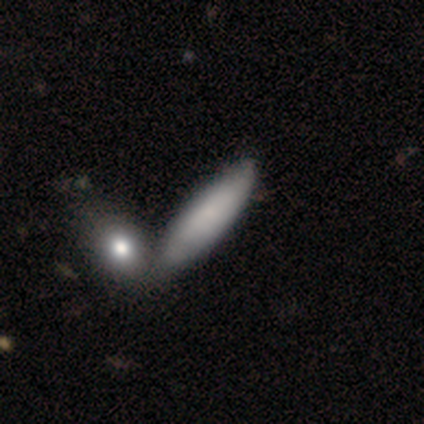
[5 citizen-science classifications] A featured or disk galaxy (60%) with no bar (100%), tight (50%, tied with medium) spiral arms (67%) and a small central bulge (100%).

Vote fractions:
- Smooth or featured? featured or disk: 60% / smooth: 40% / star or artifact: 0%
- Edge-on disk? no: 100% / yes: 0%
- Bar? no: 100% / strong: 0% / weak: 0%
- Spiral arms? yes: 67% / no: 33%
- Spiral winding? tight: 50% (tied) / medium: 50% (tied) / loose: 0%
- Spiral arm count? can't tell: 100% / 1: 0% / 2: 0% / 3: 0% / 4: 0% / more than 4: 0%
- Bulge size? small: 100% / dominant: 0% / large: 0% / moderate: 0% / none: 0%
- Merging? none: 100% / minor disturbance: 0% / major disturbance: 0% / merger: 0%